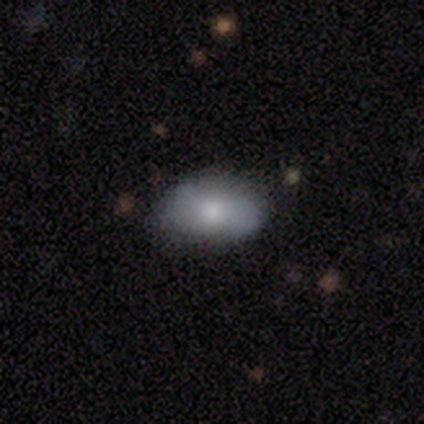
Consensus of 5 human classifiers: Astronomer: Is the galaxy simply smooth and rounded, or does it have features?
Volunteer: featured or disk — 60% (runner-up: smooth, 40%).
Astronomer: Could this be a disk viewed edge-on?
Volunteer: no — 100%.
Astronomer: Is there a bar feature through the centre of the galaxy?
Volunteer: no — 100%.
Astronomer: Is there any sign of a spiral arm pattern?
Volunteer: yes — 67%.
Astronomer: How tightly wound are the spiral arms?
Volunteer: medium — 50%, tied with loose at 50%.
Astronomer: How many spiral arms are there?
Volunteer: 2 — 100%.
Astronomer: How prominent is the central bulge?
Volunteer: moderate — 67%.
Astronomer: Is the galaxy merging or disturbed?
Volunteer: none — 100%.